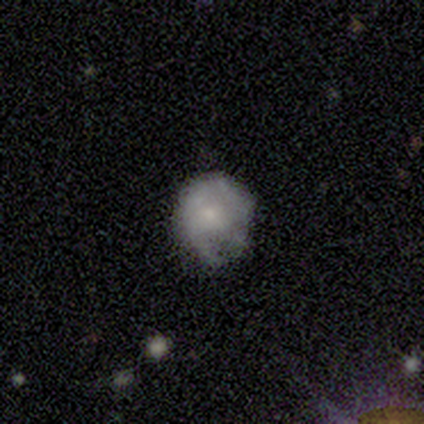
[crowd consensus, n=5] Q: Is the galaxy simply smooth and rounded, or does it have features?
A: smooth — 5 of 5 (100%).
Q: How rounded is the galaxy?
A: round — 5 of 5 (100%).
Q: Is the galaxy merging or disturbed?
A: none — 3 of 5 (60%).